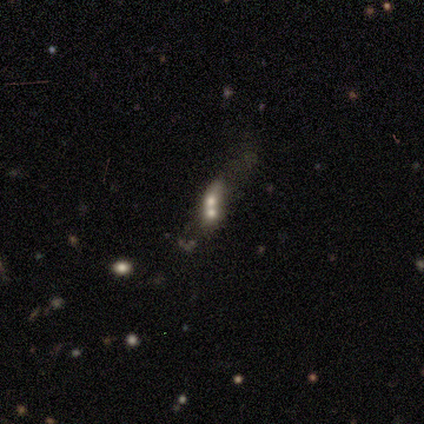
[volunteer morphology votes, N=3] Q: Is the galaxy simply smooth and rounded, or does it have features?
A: smooth — 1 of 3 (33%, tied with featured or disk and star or artifact).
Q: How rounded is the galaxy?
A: in between — 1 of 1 (100%).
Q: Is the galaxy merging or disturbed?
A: merger — 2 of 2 (100%).